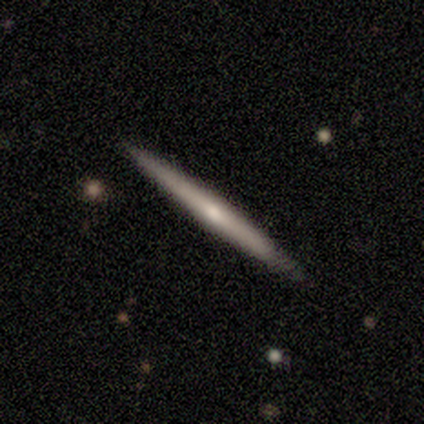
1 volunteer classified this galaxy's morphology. type=featured or disk (100%); edge-on=yes (100%); edge-on bulge=rounded (100%); merging=none (100%).